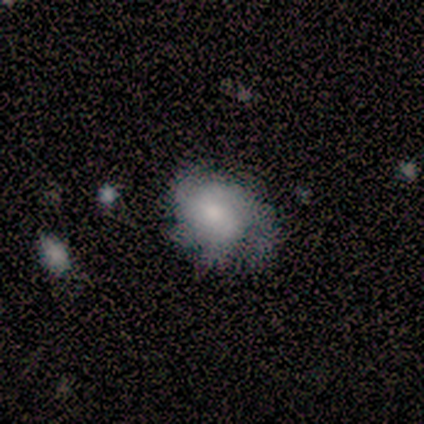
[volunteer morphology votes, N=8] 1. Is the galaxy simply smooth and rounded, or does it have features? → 62% featured or disk, 38% smooth, 0% star or artifact.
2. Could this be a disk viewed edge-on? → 100% no, 0% yes.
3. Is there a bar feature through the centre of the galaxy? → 60% no, 40% weak, 0% strong.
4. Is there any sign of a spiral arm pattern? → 100% yes, 0% no.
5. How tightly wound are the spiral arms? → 60% medium, 20% tight, 20% loose.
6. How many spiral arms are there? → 60% can't tell, 20% 2, 20% 3, 0% 1, 0% 4, 0% more than 4.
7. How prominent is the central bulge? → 80% moderate, 20% small, 0% dominant, 0% large, 0% none.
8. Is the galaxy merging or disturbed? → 62% minor disturbance, 38% none, 0% major disturbance, 0% merger.